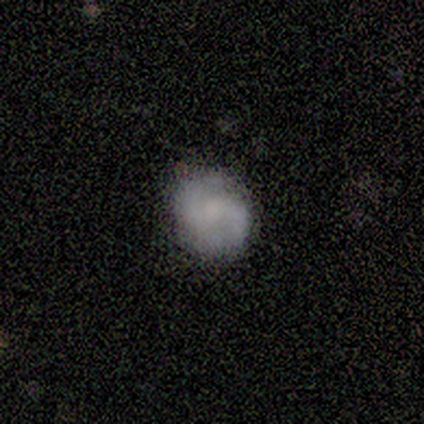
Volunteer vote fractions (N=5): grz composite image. It shows a featured or disk galaxy (80%) with no bar (75%), 2 (100%) medium (50%) spiral arms (100%) and a moderate central bulge (50%). Merging: none (75%).